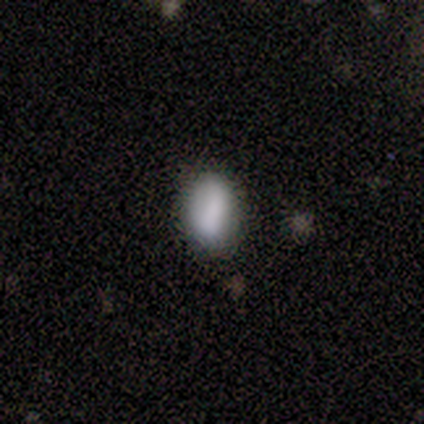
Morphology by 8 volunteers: smooth_or_featured: smooth (p=1.00)
how_rounded: in between (p=0.75) [alt: round p=0.25]
merging: none (p=0.62) [alt: minor disturbance p=0.12]